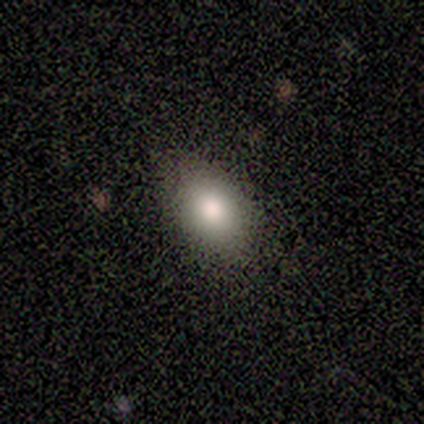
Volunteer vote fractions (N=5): smooth-or-featured: smooth: 100% | featured or disk: 0% | star or artifact: 0%
  how-rounded: in between: 80% | round: 20% | cigar-shaped: 0%
  merging: none: 80% | minor disturbance: 20% | major disturbance: 0% | merger: 0%